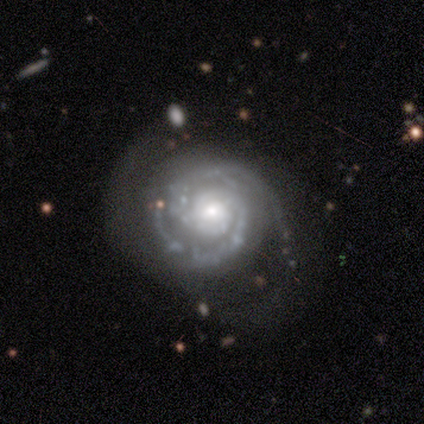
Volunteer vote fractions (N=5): Morphology: type=featured or disk (80%); edge-on=no (100%); bar=weak (100%); spiral arms=yes (100%); winding=tight (75%); arm count=2 (75%); bulge=small (50%); merging=none (60%).